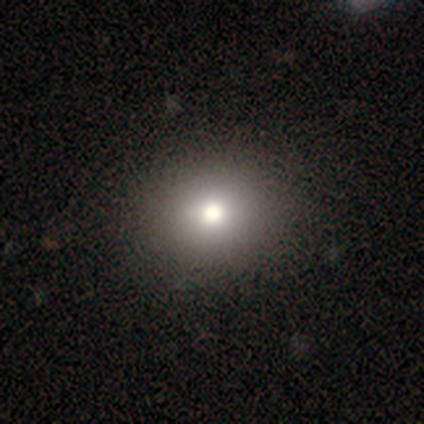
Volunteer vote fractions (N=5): Volunteers were most divided on "smooth or featured": smooth: 60%, star or artifact: 40%, featured or disk: 0%. More confident: how rounded — round (100%); merging — none (100%).